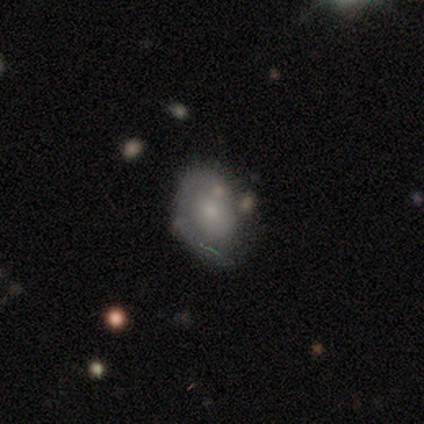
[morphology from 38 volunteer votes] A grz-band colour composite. It shows a featured or disk galaxy (50%) with no bar (89%), 1 (71%) tight (64%) spiral arms (78%) and a small central bulge (39%). Merging: none (60%).